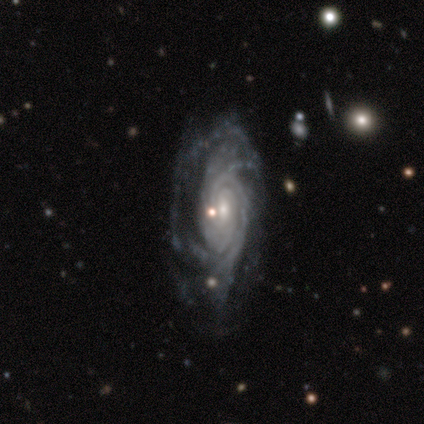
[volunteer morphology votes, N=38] featured or disk 89%, smooth 5%, star or artifact 5%. Down the decision tree: edge-on disk — no (97%); bar — no (61%); spiral arms — yes (100%); spiral arm count — more than 4 (27%, tied with can't tell); spiral winding — tight (73%); bulge size — small (55%); merging — none (58%).